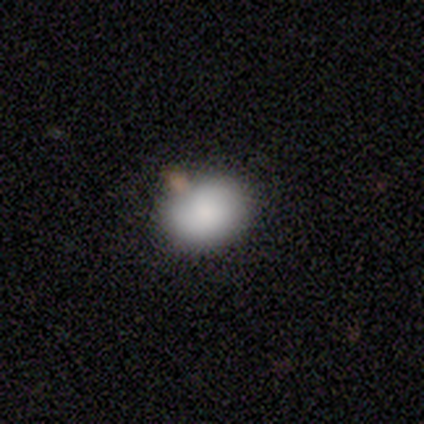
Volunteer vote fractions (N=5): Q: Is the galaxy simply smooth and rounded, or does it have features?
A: smooth — 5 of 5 (100%).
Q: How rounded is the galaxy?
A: in between — 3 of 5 (60%).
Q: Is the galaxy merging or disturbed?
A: none — 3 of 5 (60%).